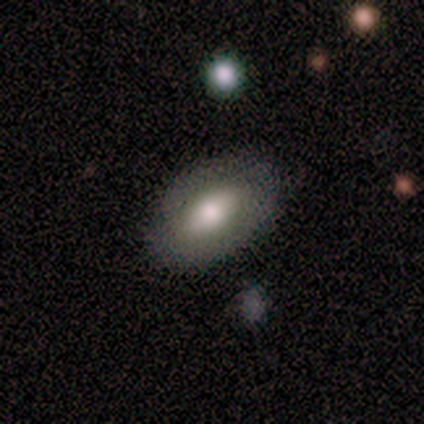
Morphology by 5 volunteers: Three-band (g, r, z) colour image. It shows a smooth galaxy with no disk features (60%) that is in between round and cigar-shaped (100%). Merging: none (80%).